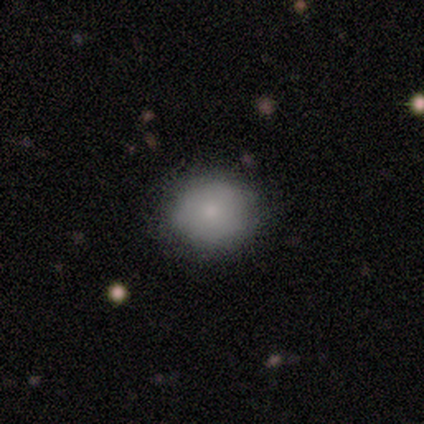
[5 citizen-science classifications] Q: Smooth or featured?
A: smooth (80%); runner-up: star or artifact (20%)
Q: How rounded?
A: round (100%)
Q: Merging?
A: none (75%); runner-up: minor disturbance (25%)